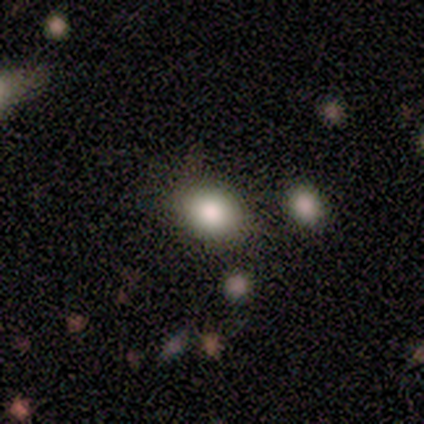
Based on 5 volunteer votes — Smooth or featured: smooth — 100%
How rounded: in between — 100%
Merging: none — 80% (minor disturbance — 20%)